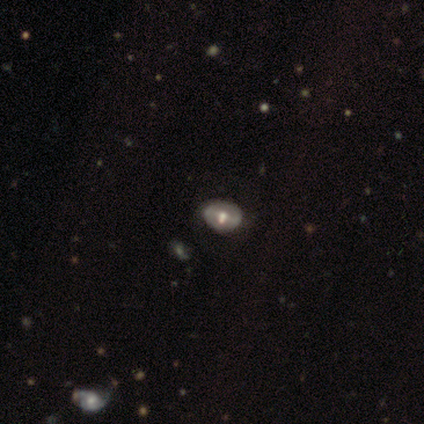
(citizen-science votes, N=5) Q: Smooth or featured?
A: smooth (40%); tied with: featured or disk (40%)
Q: How rounded?
A: round (50%); tied with: in between (50%)
Q: Merging?
A: none (100%)